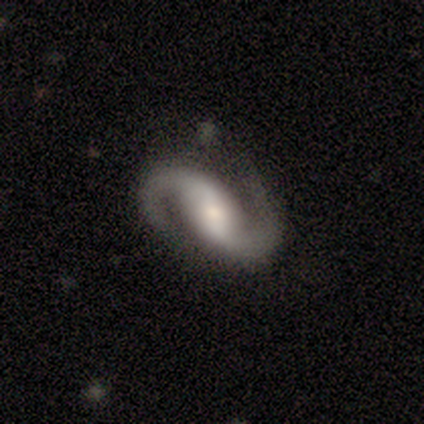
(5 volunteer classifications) This is clearly a featured or disk galaxy (80%). It is clearly not viewed edge-on (100%). Bar: possibly strong (50%, tied with no). Spiral arm pattern: clearly yes (100%). Spiral arm count: clearly 2 (100%). Spiral winding: possibly loose (50%). Central bulge: possibly small (50%). Merging: likely none (75%).